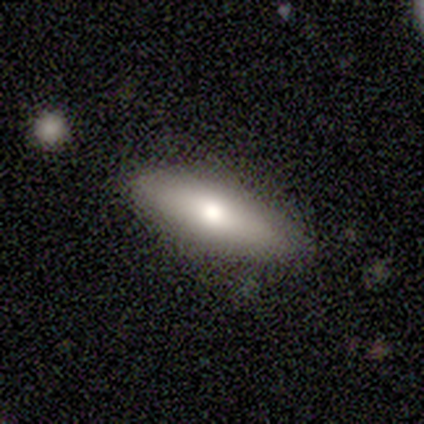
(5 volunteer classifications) Volunteers were most divided on "smooth or featured": featured or disk: 60%, smooth: 40%, star or artifact: 0%. More confident: bar — no (100%); spiral arms — no (100%); bulge size — moderate (100%); merging — none (100%); edge-on disk — no (67%).